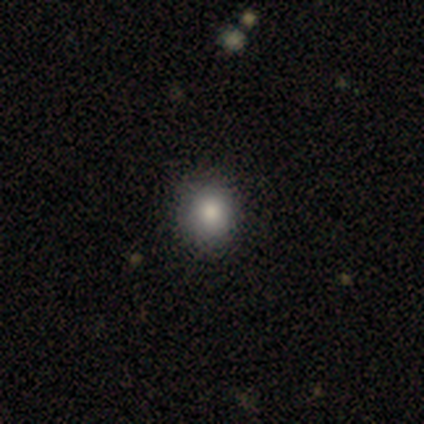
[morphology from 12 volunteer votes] type=smooth (75%); roundness=round (100%); merging=none (100%).